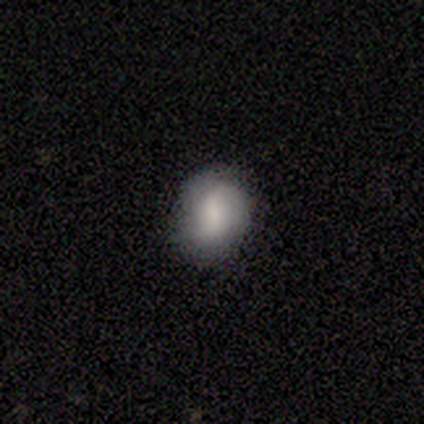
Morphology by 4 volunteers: smooth_or_featured: smooth (p=1.00)
how_rounded: round (p=0.50) [tied with: in between p=0.50]
merging: none (p=1.00)